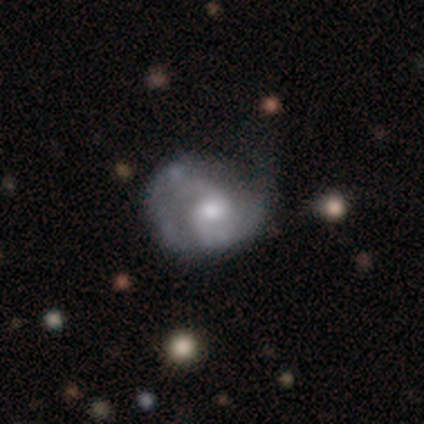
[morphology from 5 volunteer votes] smooth-or-featured: featured or disk: 60% | smooth: 40% | star or artifact: 0%
  disk-edge-on: no: 100% | yes: 0%
    bar: no: 67% | weak: 33% | strong: 0%
    has-spiral-arms: yes: 100% | no: 0%
      spiral-winding: medium: 67% | loose: 33% | tight: 0%
      spiral-arm-count: 2: 100% | 1: 0% | 3: 0% | 4: 0% | more than 4: 0% | can't tell: 0%
    bulge-size: moderate: 100% | dominant: 0% | large: 0% | small: 0% | none: 0%
  merging: none: 60% | minor disturbance: 20% | major disturbance: 20% | merger: 0%